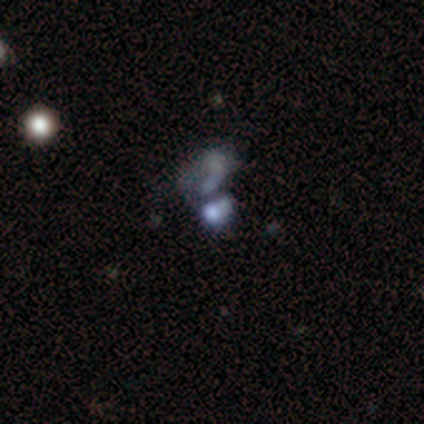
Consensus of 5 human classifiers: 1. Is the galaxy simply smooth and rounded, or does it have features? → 40% smooth (tied), 40% star or artifact (tied), 20% featured or disk.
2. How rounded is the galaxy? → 100% in between, 0% round, 0% cigar-shaped.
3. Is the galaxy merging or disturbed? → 33% none (tied), 33% major disturbance (tied), 33% merger (tied), 0% minor disturbance.